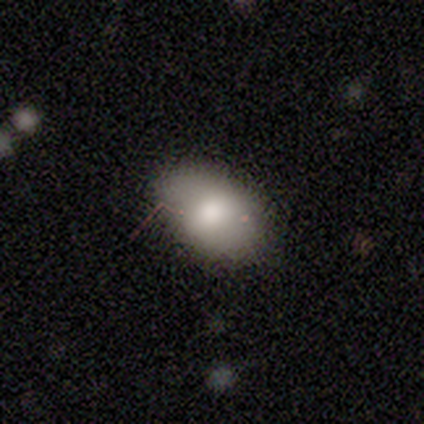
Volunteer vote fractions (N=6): smooth-or-featured: smooth: 100% | featured or disk: 0% | star or artifact: 0%
  how-rounded: in between: 100% | round: 0% | cigar-shaped: 0%
  merging: none: 50% (tied) | minor disturbance: 50% (tied) | major disturbance: 0% | merger: 0%